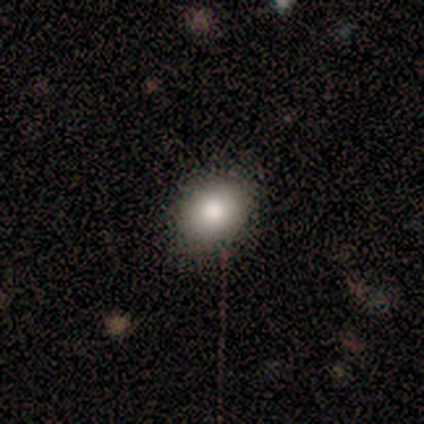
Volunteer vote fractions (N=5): Smooth or featured?
  - smooth: 80% *
  - star or artifact: 20%
  - featured or disk: 0%
How rounded?
  - round: 50% * (tied)
  - in between: 50% * (tied)
  - cigar-shaped: 0%
Merging?
  - none: 100% *
  - minor disturbance: 0%
  - major disturbance: 0%
  - merger: 0%